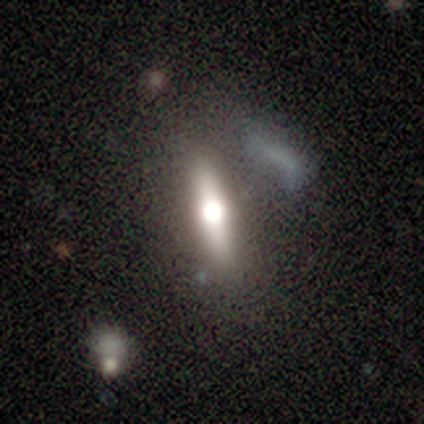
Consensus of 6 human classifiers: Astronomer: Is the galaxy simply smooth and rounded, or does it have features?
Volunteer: smooth — 50%, tied with featured or disk at 50%.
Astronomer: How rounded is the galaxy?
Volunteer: cigar-shaped — 67%.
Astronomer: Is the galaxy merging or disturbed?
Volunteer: none — 83%.